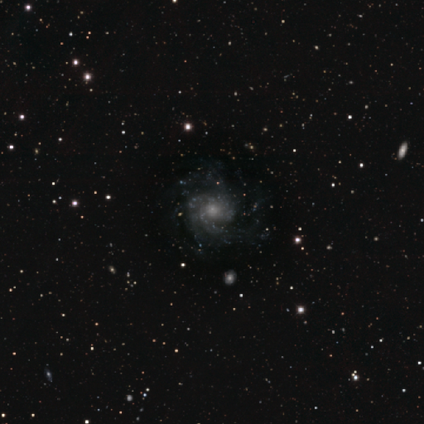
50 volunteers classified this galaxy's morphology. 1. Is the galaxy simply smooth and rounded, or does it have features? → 78% featured or disk, 16% star or artifact, 6% smooth.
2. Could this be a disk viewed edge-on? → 95% no, 5% yes.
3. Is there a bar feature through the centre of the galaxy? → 86% no, 11% weak, 3% strong.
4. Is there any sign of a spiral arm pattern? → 100% yes, 0% no.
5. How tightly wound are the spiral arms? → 57% medium, 35% tight, 8% loose.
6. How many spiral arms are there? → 30% 3, 24% can't tell, 16% 2, 14% 4, 11% more than 4, 5% 1.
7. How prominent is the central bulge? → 46% small, 30% moderate, 14% large, 8% none, 3% dominant.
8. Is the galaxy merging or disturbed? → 57% none, 24% minor disturbance, 19% major disturbance, 0% merger.